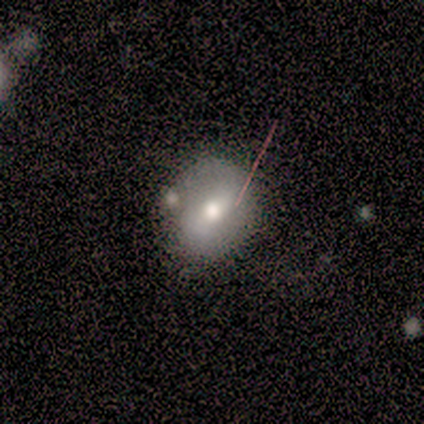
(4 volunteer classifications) This appears to be a smooth galaxy with no disk features (50%, tied with featured or disk) that is round (100%). Merging: none (75%).